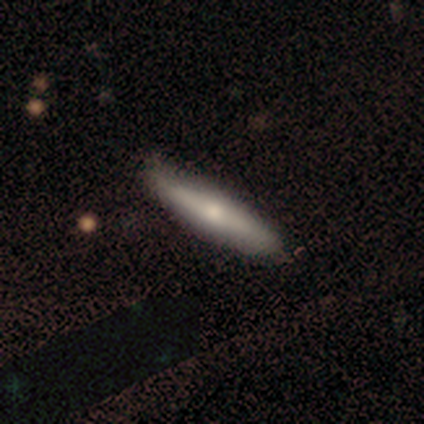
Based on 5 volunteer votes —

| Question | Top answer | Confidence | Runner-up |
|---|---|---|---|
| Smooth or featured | featured or disk | 60% | smooth (40%) |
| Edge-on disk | yes | 100% | — |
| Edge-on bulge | rounded | 100% | — |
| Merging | none | 80% | minor disturbance (20%) |